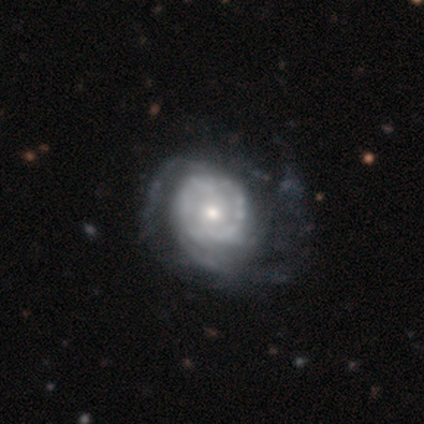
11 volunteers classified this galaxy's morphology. Volunteers were most divided on "spiral arm count" (2-way tie): 2: 33%, can't tell: 33%, 3: 22%, more than 4: 11%, 1: 0%, 4: 0%. More confident: edge-on disk — no (100%); spiral arms — yes (100%); bar — no (89%); bulge size — moderate (89%); smooth or featured — featured or disk (82%); merging — none (60%); spiral winding — tight (56%).